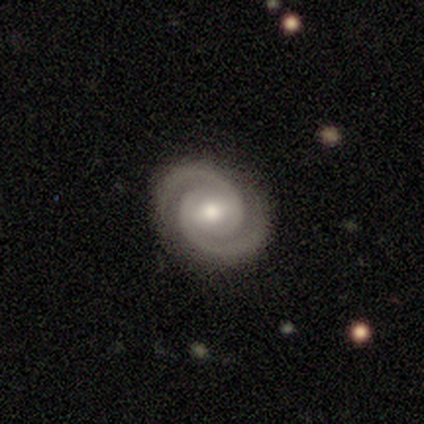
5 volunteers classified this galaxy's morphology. Q: Smooth or featured?
A: featured or disk (100%)
Q: Edge-on disk?
A: no (100%)
Q: Bar?
A: weak (80%); runner-up: no (20%)
Q: Spiral arms?
A: yes (100%)
Q: Spiral winding?
A: tight (80%); runner-up: medium (20%)
Q: Spiral arm count?
A: 2 (100%)
Q: Bulge size?
A: small (60%); runner-up: moderate (40%)
Q: Merging?
A: none (100%)